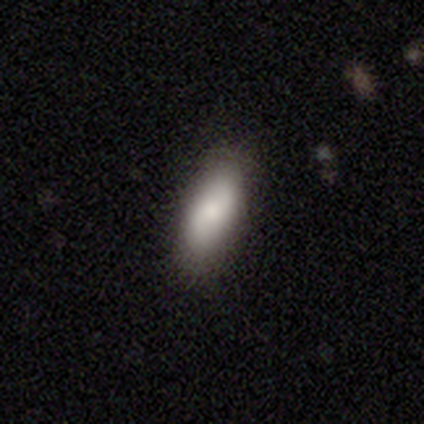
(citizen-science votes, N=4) smooth_or_featured: smooth (p=1.00)
how_rounded: in between (p=0.75) [alt: cigar-shaped p=0.25]
merging: none (p=0.75) [alt: minor disturbance p=0.25]